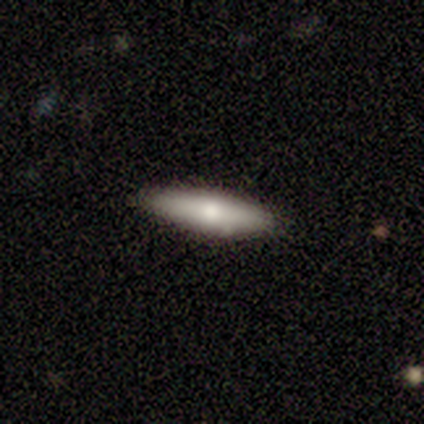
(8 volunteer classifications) smooth 62%, featured or disk 38%, star or artifact 0%. Down the decision tree: how rounded — cigar-shaped (60%); merging — none (100%).